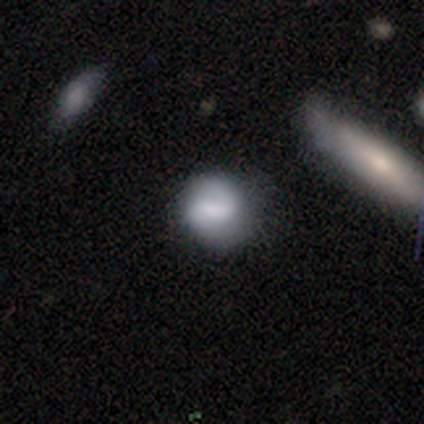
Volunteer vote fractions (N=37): This is possibly a smooth galaxy (46%). How rounded: likely round (76%). Merging: likely none (73%).